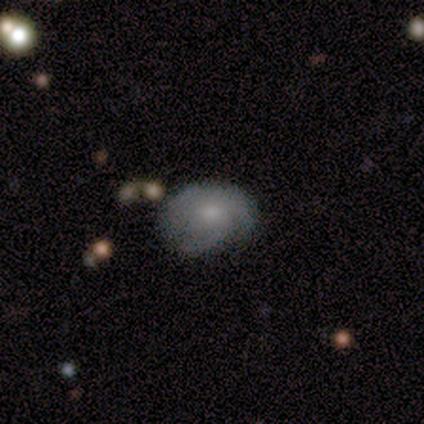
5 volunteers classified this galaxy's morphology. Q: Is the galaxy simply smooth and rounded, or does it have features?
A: featured or disk — 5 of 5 (100%).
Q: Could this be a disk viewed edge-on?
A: no — 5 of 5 (100%).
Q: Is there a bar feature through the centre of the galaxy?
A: weak — 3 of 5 (60%).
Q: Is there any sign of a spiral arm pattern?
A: yes — 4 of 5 (80%).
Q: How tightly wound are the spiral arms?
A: medium — 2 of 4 (50%).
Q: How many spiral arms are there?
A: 1 — 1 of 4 (25%, tied with 2, 3 and more than 4).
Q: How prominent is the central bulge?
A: small — 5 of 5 (100%).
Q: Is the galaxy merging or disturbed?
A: minor disturbance — 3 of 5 (60%).